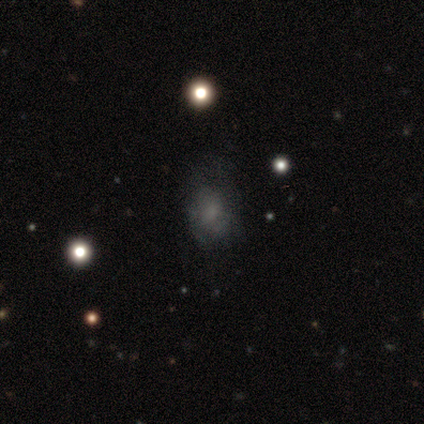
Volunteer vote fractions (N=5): Q: Smooth or featured?
A: smooth (60%); runner-up: star or artifact (40%)
Q: How rounded?
A: in between (100%)
Q: Merging?
A: minor disturbance (67%); runner-up: none (33%)